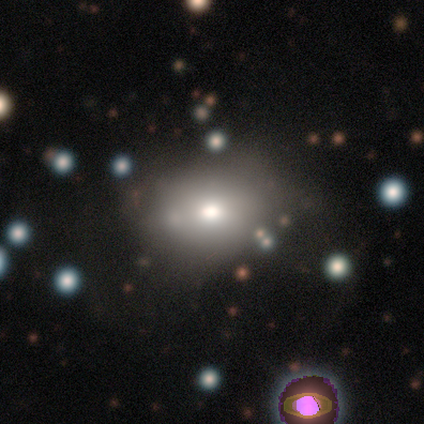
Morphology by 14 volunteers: smooth-or-featured: smooth: 57% | star or artifact: 29% | featured or disk: 14%
  how-rounded: in between: 75% | round: 25% | cigar-shaped: 0%
  merging: none: 70% | minor disturbance: 20% | major disturbance: 10% | merger: 0%